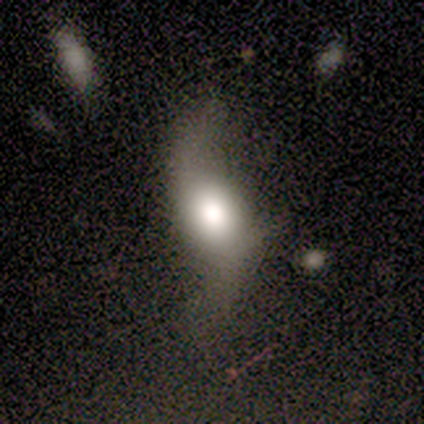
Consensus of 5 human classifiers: A featured or disk galaxy (80%) with no bar (75%), 2 (100%) loose (100%) spiral arms (75%) and a large central bulge (100%).

Vote fractions:
- Smooth or featured? featured or disk: 80% / smooth: 20% / star or artifact: 0%
- Edge-on disk? no: 100% / yes: 0%
- Bar? no: 75% / weak: 25% / strong: 0%
- Spiral arms? yes: 75% / no: 25%
- Spiral winding? loose: 100% / tight: 0% / medium: 0%
- Spiral arm count? 2: 100% / 1: 0% / 3: 0% / 4: 0% / more than 4: 0% / can't tell: 0%
- Bulge size? large: 100% / dominant: 0% / moderate: 0% / small: 0% / none: 0%
- Merging? minor disturbance: 40% (tied) / major disturbance: 40% (tied) / none: 20% / merger: 0%